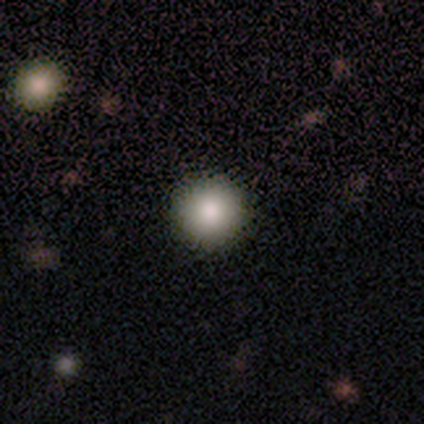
Smooth or featured? smooth (92%)
How rounded? round (100%)
Merging? none (51%)